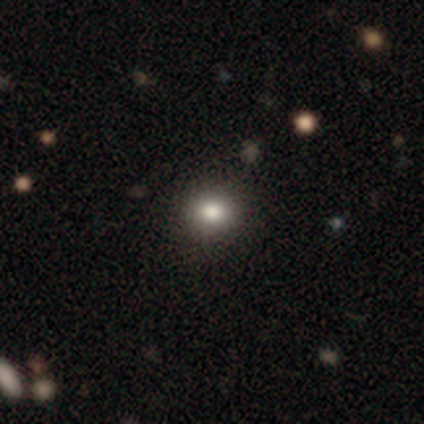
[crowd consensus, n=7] Smooth or featured?
  - smooth: 71% *
  - star or artifact: 29%
  - featured or disk: 0%
How rounded?
  - round: 80% *
  - in between: 20%
  - cigar-shaped: 0%
Merging?
  - none: 80% *
  - minor disturbance: 20%
  - major disturbance: 0%
  - merger: 0%